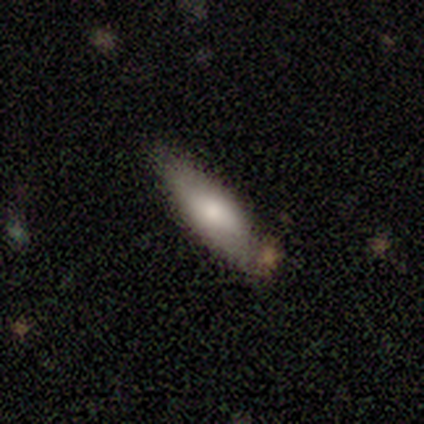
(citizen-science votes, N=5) Overall: smooth (100%). How rounded: cigar-shaped (60%; in between 40%). Merging: none (60%; minor disturbance 40%).